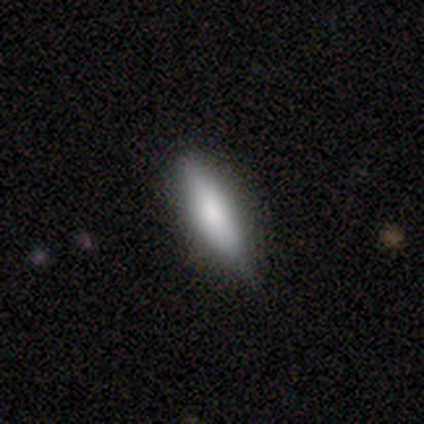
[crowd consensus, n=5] A smooth galaxy with no disk features (100%) that is cigar-shaped (100%).

Vote fractions:
- Smooth or featured? smooth: 100% / featured or disk: 0% / star or artifact: 0%
- How rounded? cigar-shaped: 100% / round: 0% / in between: 0%
- Merging? none: 100% / minor disturbance: 0% / major disturbance: 0% / merger: 0%